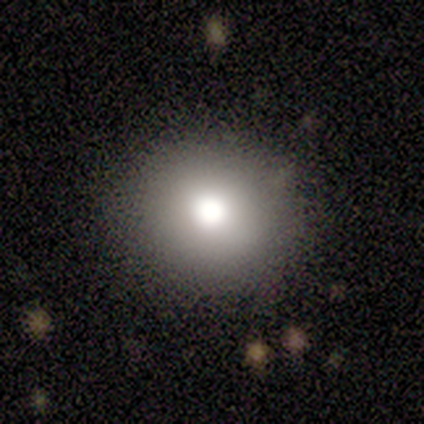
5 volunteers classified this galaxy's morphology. Consensus on every question: smooth or featured — smooth (100%); how rounded — round (100%); merging — none (100%).